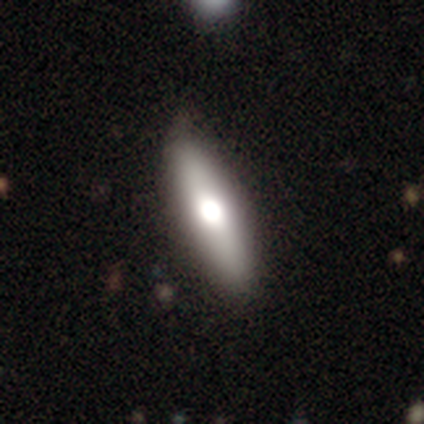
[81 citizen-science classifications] Q: Smooth or featured?
A: smooth (52%); runner-up: featured or disk (37%)
Q: How rounded?
A: cigar-shaped (57%); runner-up: in between (43%)
Q: Merging?
A: none (40%); runner-up: minor disturbance (10%)